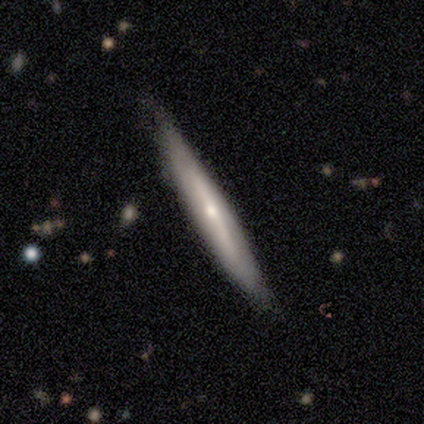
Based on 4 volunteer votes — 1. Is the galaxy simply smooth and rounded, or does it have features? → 50% star or artifact, 25% smooth, 25% featured or disk.